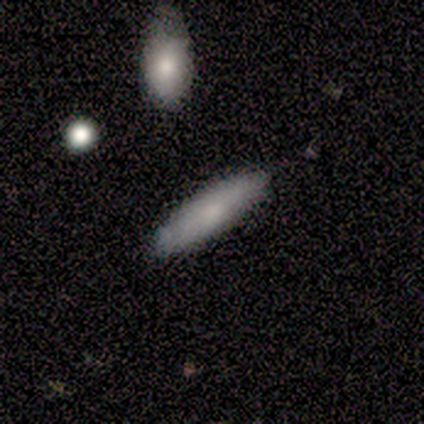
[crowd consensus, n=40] Smooth or featured? smooth (70%)
How rounded? cigar-shaped (79%)
Merging? none (79%)